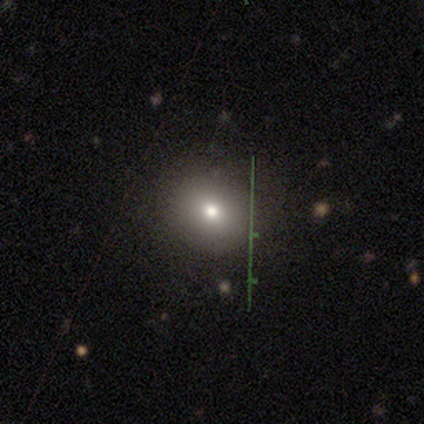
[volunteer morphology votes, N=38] Smooth or featured: smooth — 55% (star or artifact — 24%)
How rounded: round — 81% (in between — 19%)
Merging: none — 86% (minor disturbance — 14%)